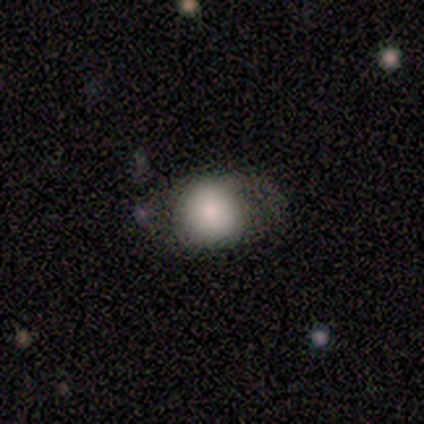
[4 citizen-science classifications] Smooth or featured? smooth (75%)
How rounded? round (67%)
Merging? none (67%)